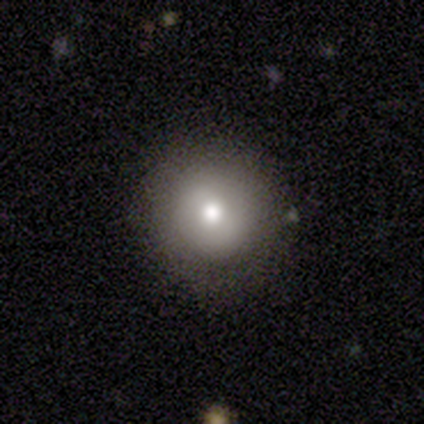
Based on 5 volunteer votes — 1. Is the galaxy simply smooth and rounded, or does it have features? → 100% smooth, 0% featured or disk, 0% star or artifact.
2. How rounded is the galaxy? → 100% round, 0% in between, 0% cigar-shaped.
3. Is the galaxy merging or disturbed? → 100% none, 0% minor disturbance, 0% major disturbance, 0% merger.